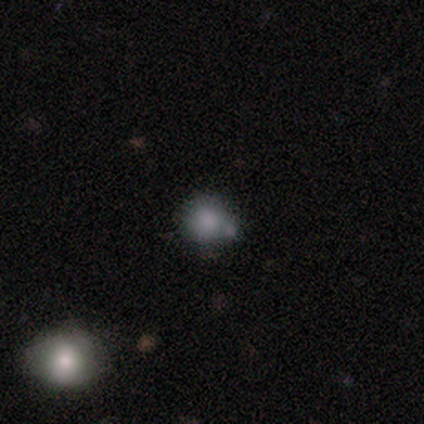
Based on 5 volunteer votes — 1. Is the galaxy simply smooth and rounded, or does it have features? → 100% smooth, 0% featured or disk, 0% star or artifact.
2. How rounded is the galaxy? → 80% round, 20% in between, 0% cigar-shaped.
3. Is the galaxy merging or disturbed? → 80% none, 20% minor disturbance, 0% major disturbance, 0% merger.